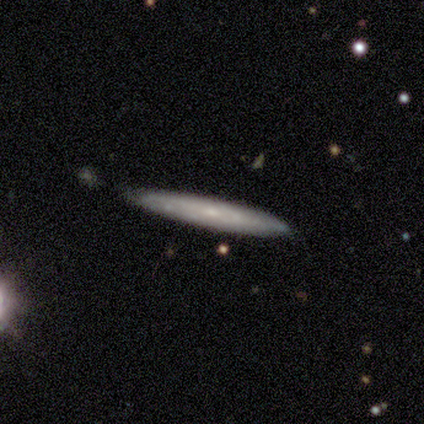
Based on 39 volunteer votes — Smooth or featured? 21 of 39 (54%) said featured or disk. Edge-on disk? 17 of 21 (81%) said yes. Edge-on bulge? 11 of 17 (65%) said none. Merging? 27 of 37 (73%) said none.